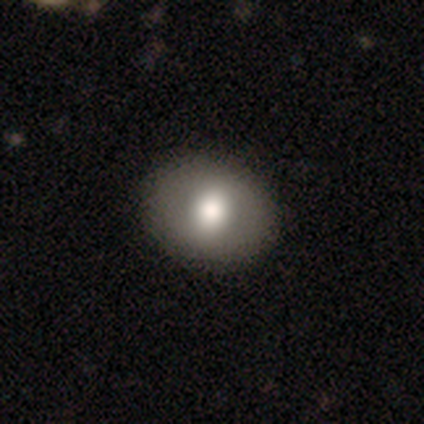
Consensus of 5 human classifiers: This is clearly a smooth galaxy (80%). How rounded: possibly round (50%, tied with in between). Merging: clearly none (100%).